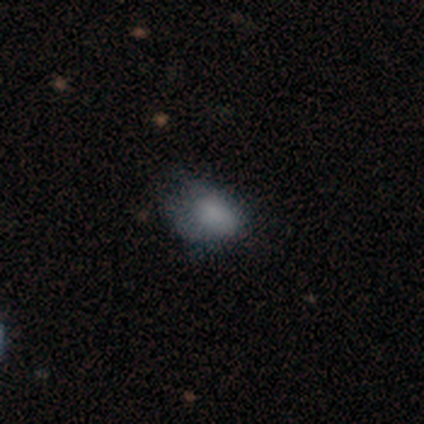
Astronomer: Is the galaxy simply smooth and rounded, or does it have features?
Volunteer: star or artifact — 67%.